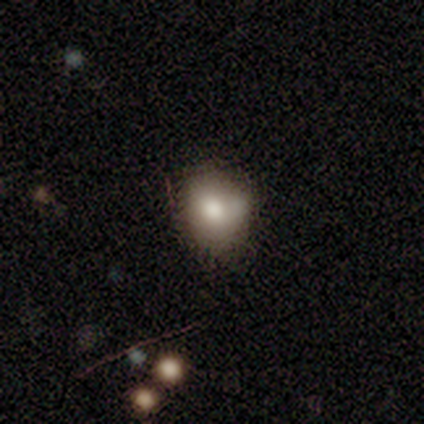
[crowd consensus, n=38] Volunteers were most divided on "how rounded": round: 57%, in between: 43%, cigar-shaped: 0%. Remaining: smooth or featured — smooth (74%); merging — none (46%).